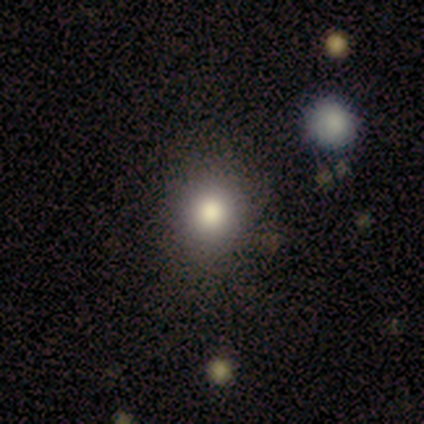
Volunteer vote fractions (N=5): Smooth or featured? smooth (80%)
How rounded? round (50%, tied with in between)
Merging? none (75%)